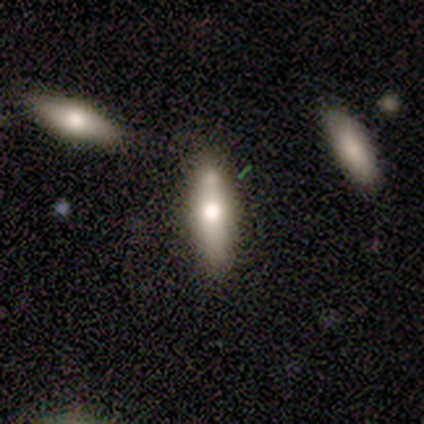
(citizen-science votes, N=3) smooth 67%, featured or disk 33%, star or artifact 0%. Down the decision tree: how rounded — cigar-shaped (100%); merging — none (67%).